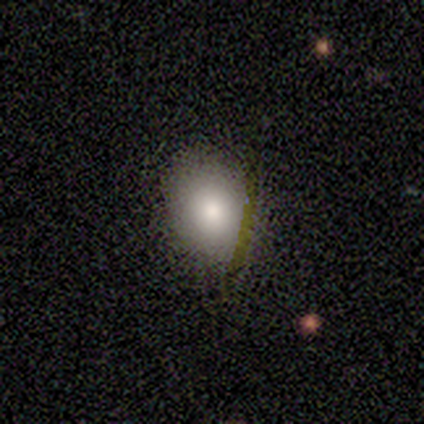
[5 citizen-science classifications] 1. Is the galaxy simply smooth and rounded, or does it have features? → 60% smooth, 20% featured or disk, 20% star or artifact.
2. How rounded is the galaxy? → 67% in between, 33% round, 0% cigar-shaped.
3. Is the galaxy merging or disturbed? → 100% none, 0% minor disturbance, 0% major disturbance, 0% merger.